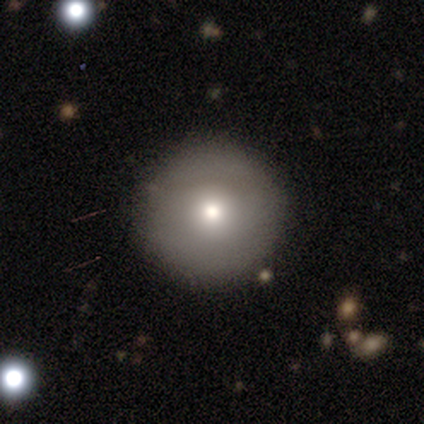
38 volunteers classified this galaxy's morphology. A smooth galaxy with no disk features (76%) that is round (97%). Merging: none (75%).